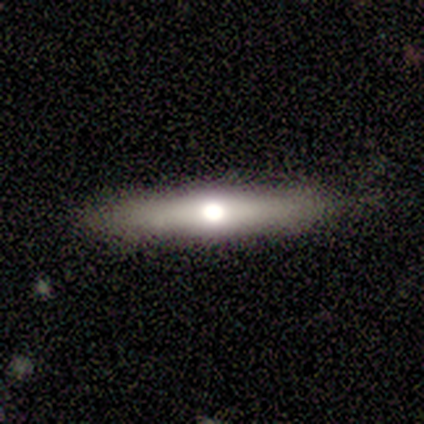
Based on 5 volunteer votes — Morphology: type=featured or disk (80%); edge-on=yes (100%); edge-on bulge=rounded (100%); merging=none (100%).